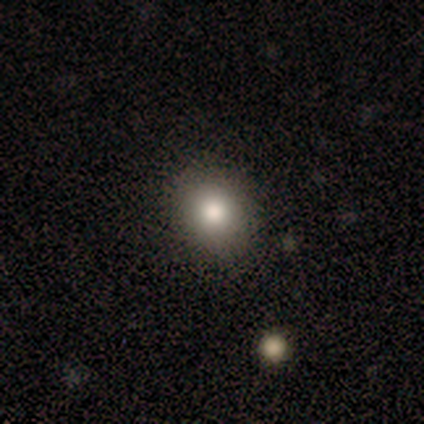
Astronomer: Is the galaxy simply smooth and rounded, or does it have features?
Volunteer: smooth — 87%.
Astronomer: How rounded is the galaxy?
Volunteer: round — 62%.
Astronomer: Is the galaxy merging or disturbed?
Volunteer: none — 53%.